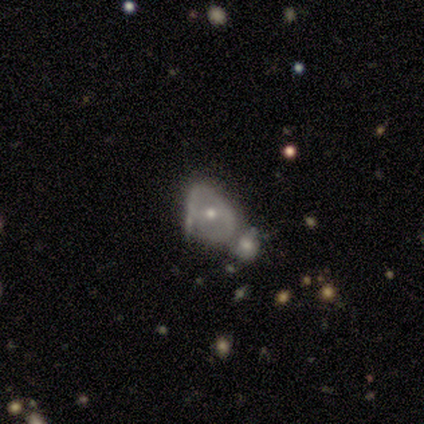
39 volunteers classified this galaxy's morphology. This is marginally a smooth galaxy (44%). How rounded: likely in between (76%). Merging: possibly merger (56%).